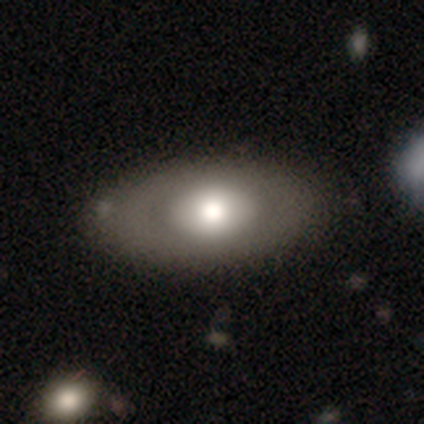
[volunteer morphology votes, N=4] Overall: smooth (50%, tied with featured or disk). How rounded: in between (100%). Merging: none (50%, tied with minor disturbance).